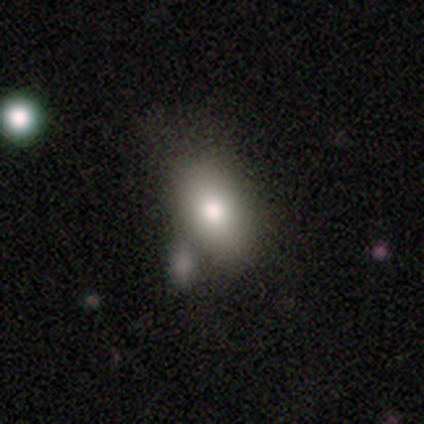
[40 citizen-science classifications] Overall: smooth (82%). How rounded: in between (100%). Merging: none (36%; merger 26%).